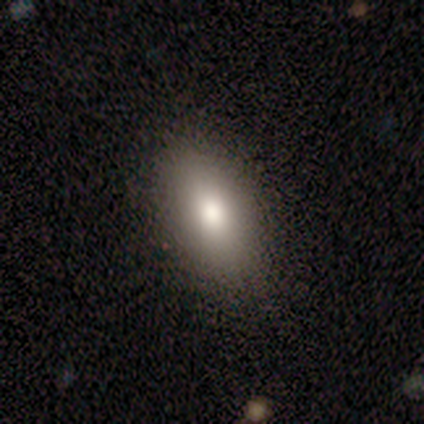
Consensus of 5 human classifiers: smooth-or-featured: smooth: 80% | star or artifact: 20% | featured or disk: 0%
  how-rounded: in between: 75% | round: 25% | cigar-shaped: 0%
  merging: none: 100% | minor disturbance: 0% | major disturbance: 0% | merger: 0%